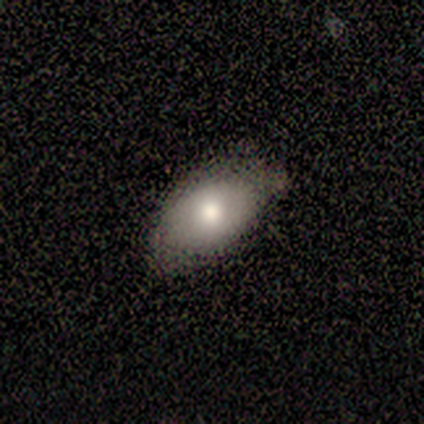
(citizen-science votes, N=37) A smooth galaxy with no disk features (78%) that is in between round and cigar-shaped (79%).

Vote fractions:
- Smooth or featured? smooth: 78% / featured or disk: 19% / star or artifact: 3%
- How rounded? in between: 79% / round: 21% / cigar-shaped: 0%
- Merging? none: 61% / minor disturbance: 39% / major disturbance: 0% / merger: 0%